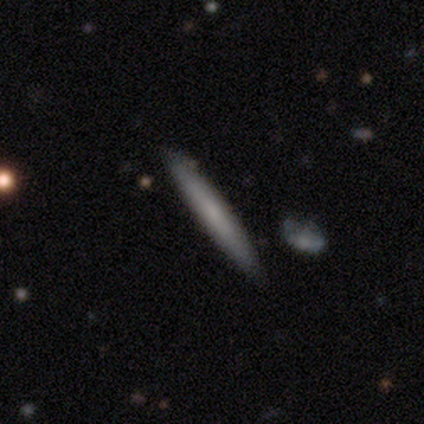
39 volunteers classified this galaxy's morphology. This appears to be a smooth galaxy with no disk features (49%) that is cigar-shaped (89%). Merging: none (81%).